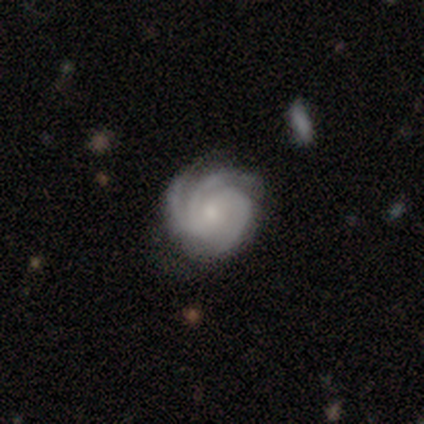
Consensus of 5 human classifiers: This appears to be a featured or disk galaxy (100%) with a weak bar (60%), 3 (60%) medium (60%) spiral arms (100%) and a small central bulge (60%). Merging: none (80%).